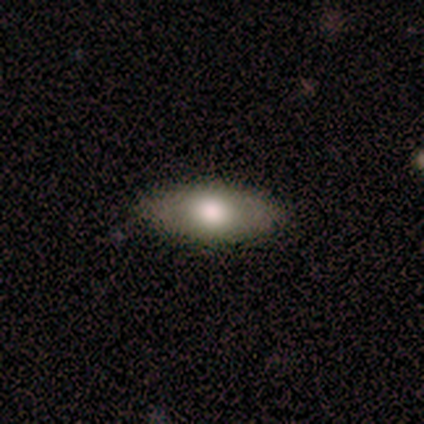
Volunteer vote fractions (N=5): Smooth or featured: featured or disk — 60% (smooth — 40%)
Edge-on disk: no — 100%
Bar: no — 100%
Spiral arms: no — 100%
Bulge size: moderate — 100%
Merging: none — 100%